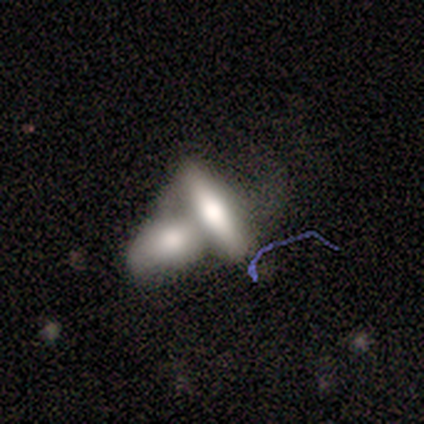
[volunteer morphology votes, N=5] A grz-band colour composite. It shows a smooth galaxy with no disk features (80%) that is in between round and cigar-shaped (50%, tied with cigar-shaped). Merging: none (40%, tied with merger).